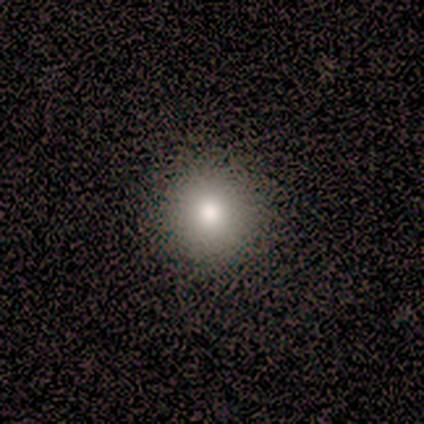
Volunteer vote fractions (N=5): A star or artifact, not a galaxy (60%).

Vote fractions:
- Smooth or featured? star or artifact: 60% / smooth: 40% / featured or disk: 0%